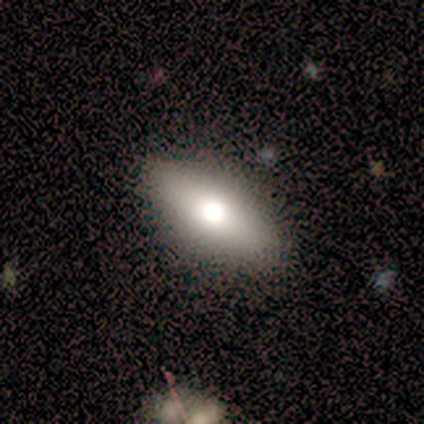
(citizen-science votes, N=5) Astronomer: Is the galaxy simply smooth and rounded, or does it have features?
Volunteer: smooth — 80%.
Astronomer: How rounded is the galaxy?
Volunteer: in between — 75%.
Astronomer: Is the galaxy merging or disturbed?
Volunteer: none — 80%.